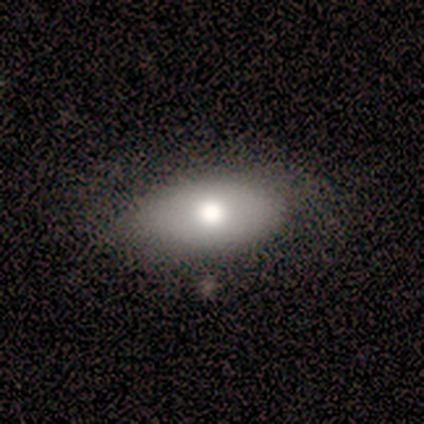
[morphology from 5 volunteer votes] Overall: smooth (100%). How rounded: in between (100%). Merging: none (80%).